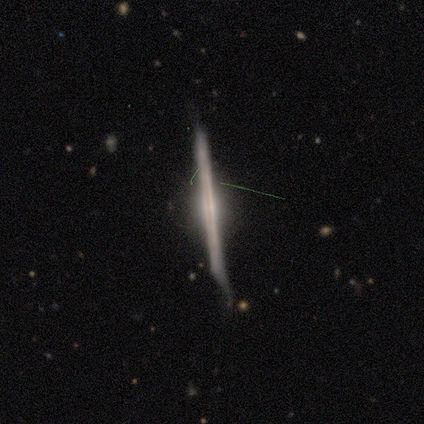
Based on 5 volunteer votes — Volunteers were most divided on "merging" (2-way tie): none: 40%, major disturbance: 40%, minor disturbance: 20%, merger: 0%. More confident: edge-on bulge — none (100%); smooth or featured — featured or disk (80%); edge-on disk — yes (75%).